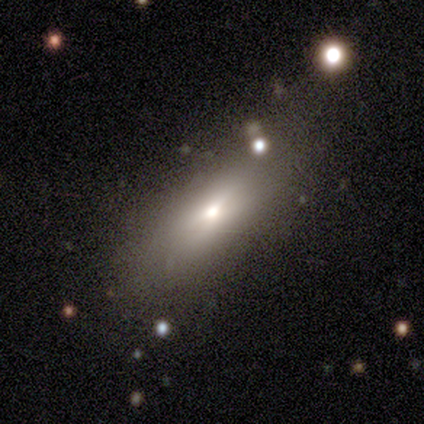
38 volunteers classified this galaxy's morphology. This is likely a smooth galaxy (74%). How rounded: likely in between (71%). Merging: likely none (72%).